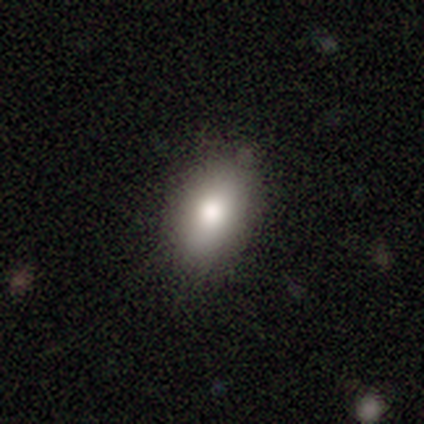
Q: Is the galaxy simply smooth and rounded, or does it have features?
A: smooth — 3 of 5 (60%).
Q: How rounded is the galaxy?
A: in between — 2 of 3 (67%).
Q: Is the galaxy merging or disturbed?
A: none — 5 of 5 (100%).